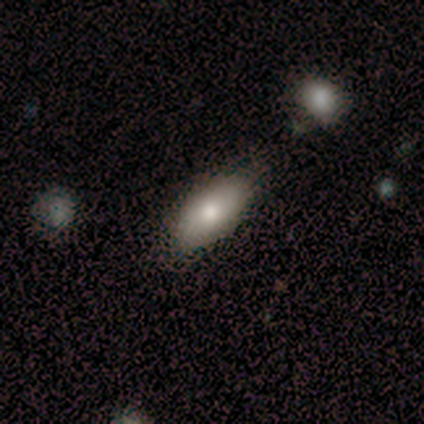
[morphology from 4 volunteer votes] smooth_or_featured: smooth (p=1.00)
how_rounded: in between (p=1.00)
merging: none (p=0.75) [alt: minor disturbance p=0.25]